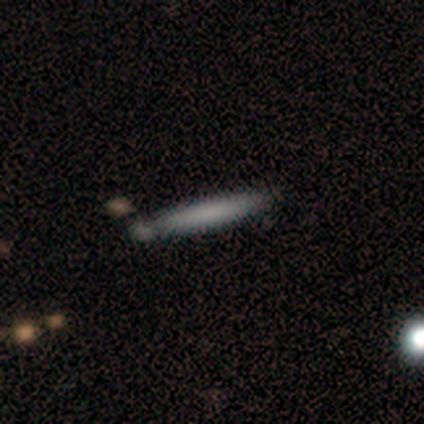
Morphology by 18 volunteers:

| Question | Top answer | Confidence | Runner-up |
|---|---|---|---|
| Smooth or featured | smooth | 89% | featured or disk (11%) |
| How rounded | cigar-shaped | 100% | — |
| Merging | none | 67% | minor disturbance (17%) |